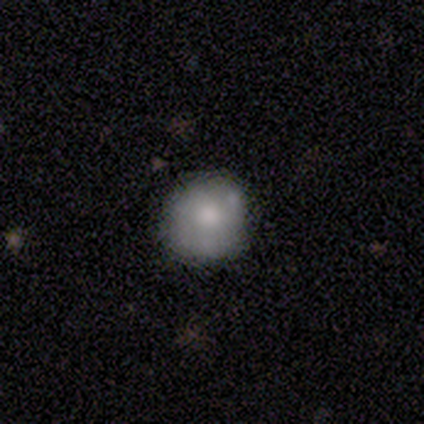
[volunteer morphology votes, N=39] Overall: smooth (67%). How rounded: round (88%). Merging: none (91%).